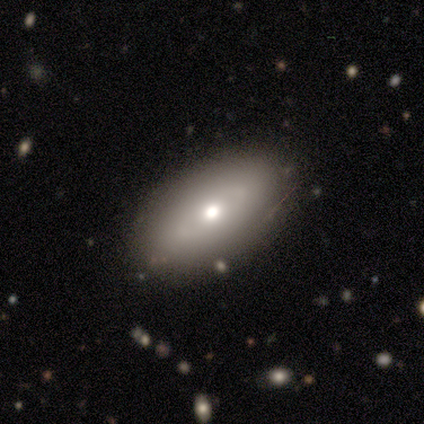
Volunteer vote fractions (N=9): Smooth or featured?
  - smooth: 89% *
  - featured or disk: 11%
  - star or artifact: 0%
How rounded?
  - in between: 88% *
  - cigar-shaped: 12%
  - round: 0%
Merging?
  - none: 89% *
  - major disturbance: 11%
  - minor disturbance: 0%
  - merger: 0%